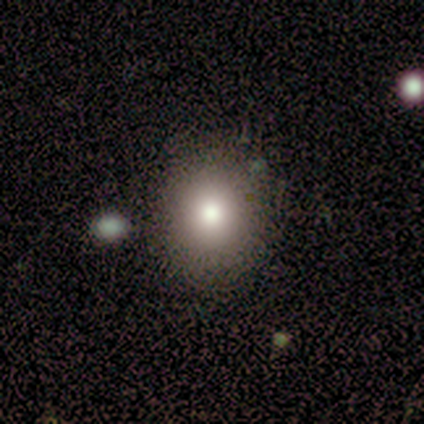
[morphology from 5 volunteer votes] A smooth galaxy with no disk features (100%) that is round (80%).

Vote fractions:
- Smooth or featured? smooth: 100% / featured or disk: 0% / star or artifact: 0%
- How rounded? round: 80% / in between: 20% / cigar-shaped: 0%
- Merging? none: 100% / minor disturbance: 0% / major disturbance: 0% / merger: 0%